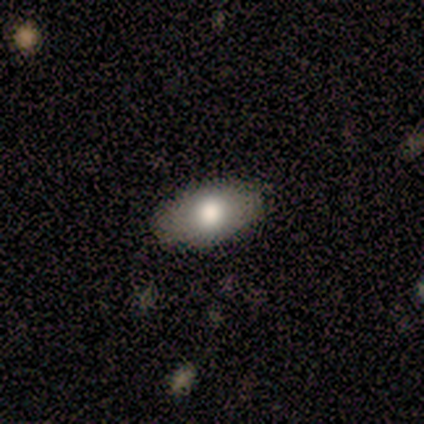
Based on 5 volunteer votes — Smooth or featured? 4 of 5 (80%) said smooth. How rounded? 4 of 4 (100%) said in between. Merging? 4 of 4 (100%) said none.